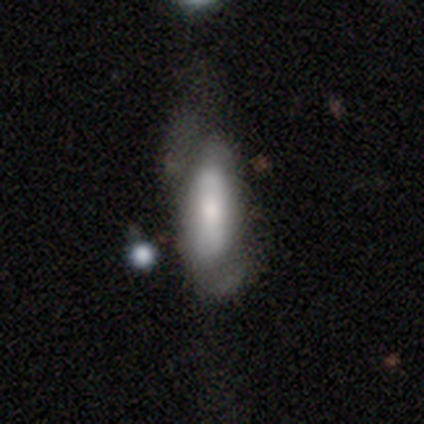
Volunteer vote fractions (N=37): smooth-or-featured: smooth: 76% | featured or disk: 22% | star or artifact: 3%
  how-rounded: cigar-shaped: 54% | in between: 43% | round: 4%
  merging: none: 42% | minor disturbance: 28% | major disturbance: 25% | merger: 6%